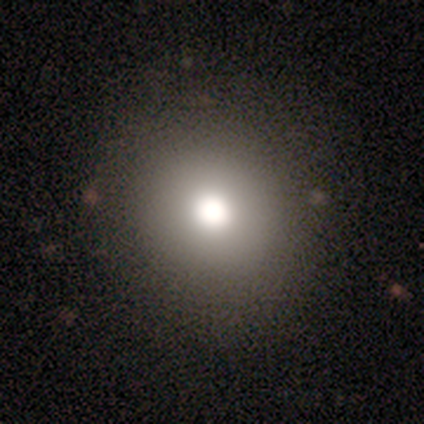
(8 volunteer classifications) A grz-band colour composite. It shows a smooth galaxy with no disk features (88%) that is round (100%). Merging: none (88%).